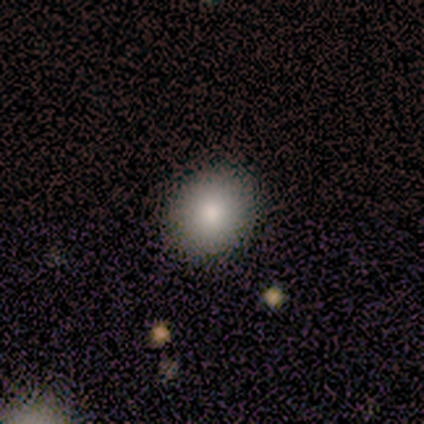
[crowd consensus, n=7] Overall: smooth (86%). How rounded: round (83%). Merging: none (86%).